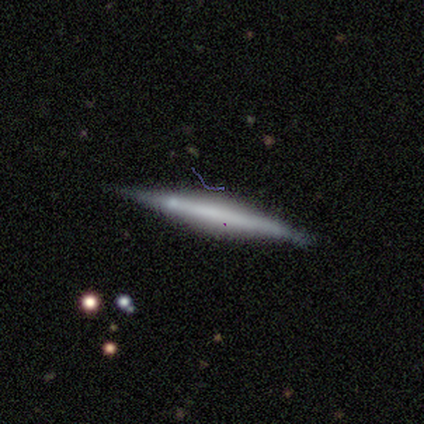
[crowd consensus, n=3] Q: Smooth or featured?
A: featured or disk (100%)
Q: Edge-on disk?
A: yes (100%)
Q: Edge-on bulge?
A: rounded (67%); runner-up: none (33%)
Q: Merging?
A: none (100%)